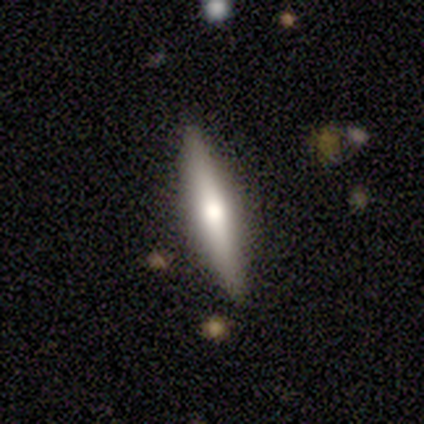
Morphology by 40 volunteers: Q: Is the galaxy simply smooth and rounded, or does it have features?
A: smooth — 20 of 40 (50%).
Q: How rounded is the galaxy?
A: cigar-shaped — 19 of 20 (95%).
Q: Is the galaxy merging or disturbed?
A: none — 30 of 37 (81%).